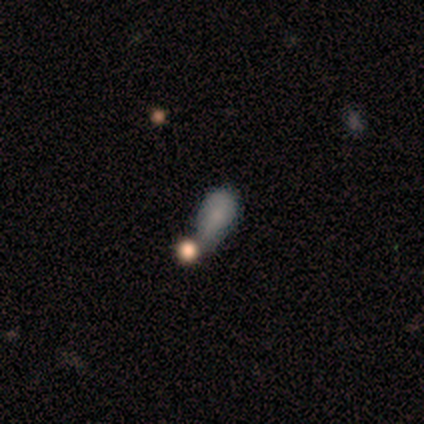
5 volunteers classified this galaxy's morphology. Volunteers were most divided on "smooth or featured": smooth: 60%, featured or disk: 20%, star or artifact: 20%. More confident: how rounded — in between (100%); merging — minor disturbance (75%).